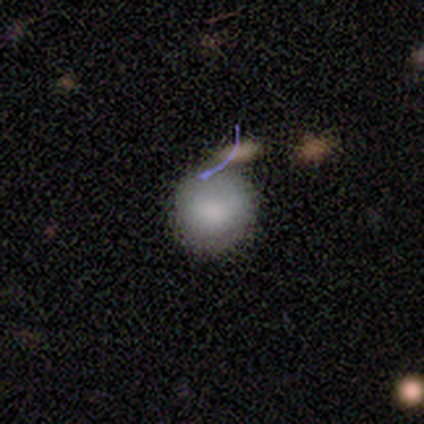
Q: Smooth or featured?
A: smooth (100%)
Q: How rounded?
A: round (100%)
Q: Merging?
A: none (80%); runner-up: merger (20%)